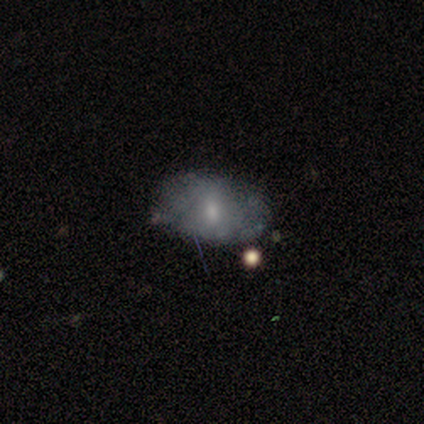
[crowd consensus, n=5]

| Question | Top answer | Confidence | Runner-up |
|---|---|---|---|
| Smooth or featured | featured or disk | 80% | smooth (20%) |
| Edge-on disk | no | 75% | yes (25%) |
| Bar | no | 100% | — |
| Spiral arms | no | 67% | yes (33%) |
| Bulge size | small | 67% | none (33%) |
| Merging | none | 100% | — |